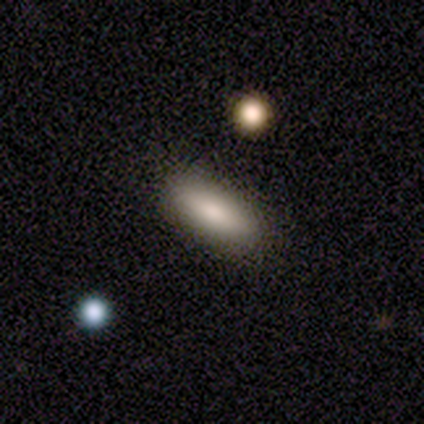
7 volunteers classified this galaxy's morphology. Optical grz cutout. It shows a smooth galaxy with no disk features (86%) that is in between round and cigar-shaped (100%). Merging: none (100%).